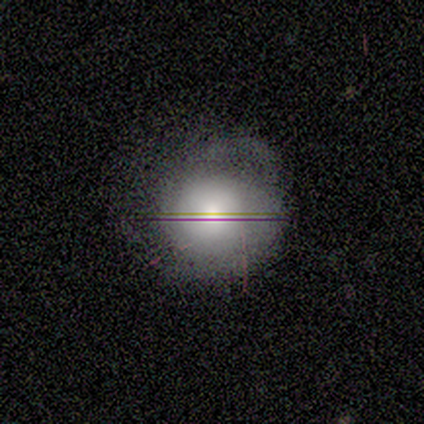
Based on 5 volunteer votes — Smooth or featured?
  - featured or disk: 60% *
  - smooth: 20%
  - star or artifact: 20%
Edge-on disk?
  - no: 67% *
  - yes: 33%
Bar?
  - no: 100% *
  - strong: 0%
  - weak: 0%
Spiral arms?
  - yes: 100% *
  - no: 0%
Spiral winding?
  - tight: 100% *
  - medium: 0%
  - loose: 0%
Spiral arm count?
  - 4: 50% * (tied)
  - can't tell: 50% * (tied)
  - 1: 0%
  - 2: 0%
  - 3: 0%
  - more than 4: 0%
Bulge size?
  - large: 50% * (tied)
  - none: 50% * (tied)
  - dominant: 0%
  - moderate: 0%
  - small: 0%
Merging?
  - none: 50% *
  - minor disturbance: 25%
  - major disturbance: 25%
  - merger: 0%